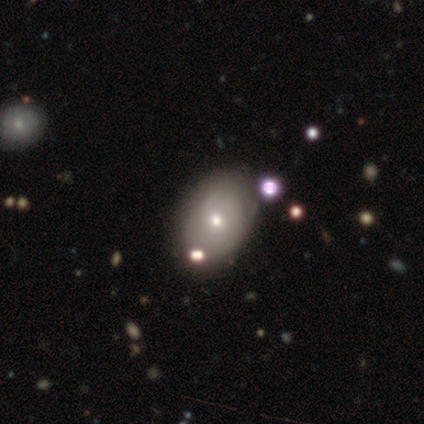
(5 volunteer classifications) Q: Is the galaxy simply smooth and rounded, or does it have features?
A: featured or disk — 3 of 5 (60%).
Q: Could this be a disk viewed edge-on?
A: no — 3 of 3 (100%).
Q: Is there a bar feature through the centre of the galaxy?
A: no — 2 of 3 (67%).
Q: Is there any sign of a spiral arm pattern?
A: yes — 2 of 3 (67%).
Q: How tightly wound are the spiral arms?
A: tight — 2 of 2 (100%).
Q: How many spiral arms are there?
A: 2 — 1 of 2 (50%, tied with can't tell).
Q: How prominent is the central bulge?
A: small — 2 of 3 (67%).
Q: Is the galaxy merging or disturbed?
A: none — 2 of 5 (40%).